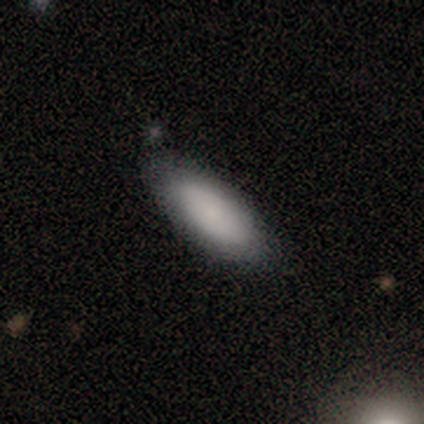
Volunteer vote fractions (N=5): Smooth or featured: smooth — 60% (featured or disk — 20%)
How rounded: in between — 100%
Merging: none — 100%